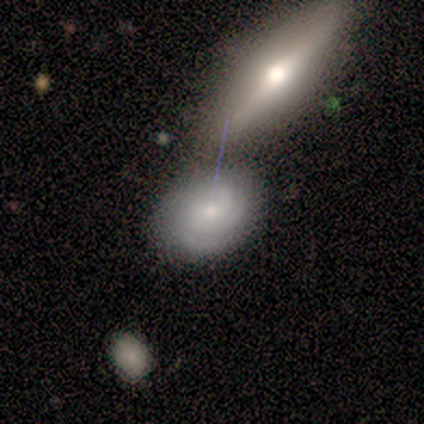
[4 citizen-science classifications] Morphology: type=featured or disk (75%); edge-on=no (67%); bar=no (100%); spiral arms=yes (100%); winding=tight (100%); arm count=2 (100%); bulge=moderate (50%, tied with small); merging=none (50%, tied with merger).